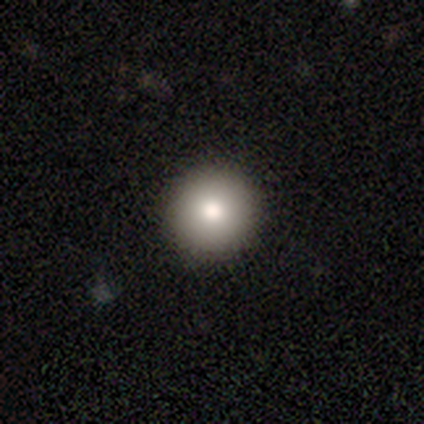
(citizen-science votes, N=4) This is likely a smooth galaxy (75%). How rounded: clearly round (100%). Merging: likely none (75%).